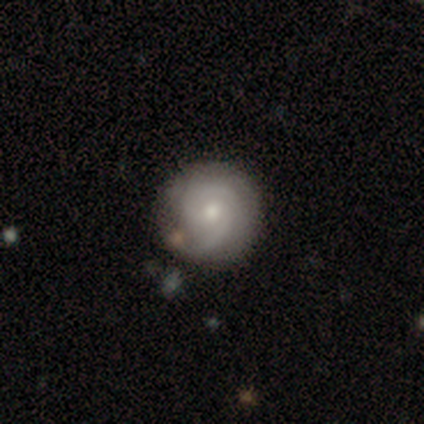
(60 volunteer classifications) featured or disk 63%, smooth 35%, star or artifact 2%. Down the decision tree: edge-on disk — no (100%); bar — no (76%); spiral arms — yes (92%); spiral arm count — 2 (69%); spiral winding — tight (71%); bulge size — moderate (53%); merging — none (76%).